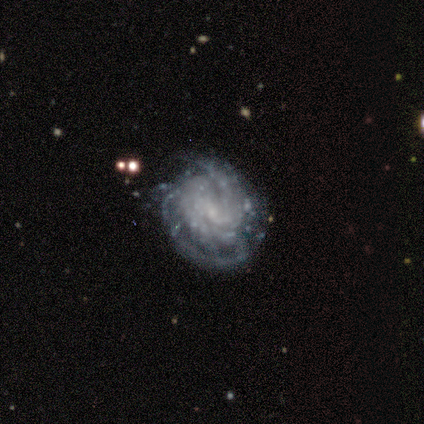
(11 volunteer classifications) Overall: featured or disk (100%). Edge-on disk: no (100%). Bar: weak (45%, tied with no). Spiral arms: yes (100%). Spiral arm count: can't tell (45%; 3 36%). Spiral winding: tight (73%). Bulge size: small (82%). Merging: none (36%; minor disturbance 27%).